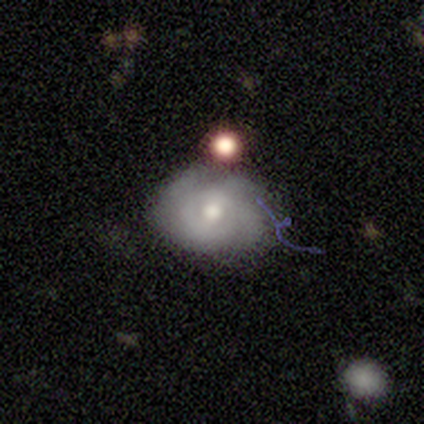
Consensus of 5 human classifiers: A featured or disk galaxy (80%) with no bar (50%), 3 (67%) medium (100%) spiral arms (75%) and a moderate central bulge (100%). Merging: minor disturbance (60%).